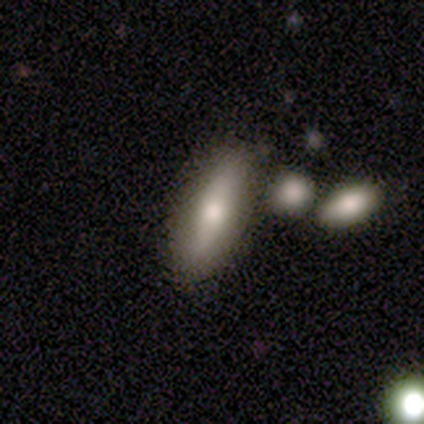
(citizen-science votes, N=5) Smooth or featured? smooth (60%)
How rounded? in between (100%)
Merging? none (75%)